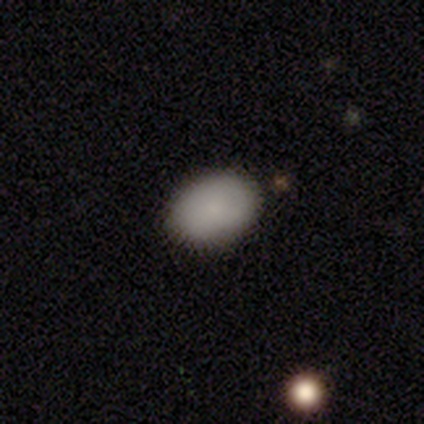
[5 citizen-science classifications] Smooth or featured? 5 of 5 (100%) said smooth. How rounded? 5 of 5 (100%) said in between. Merging? 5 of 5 (100%) said none.